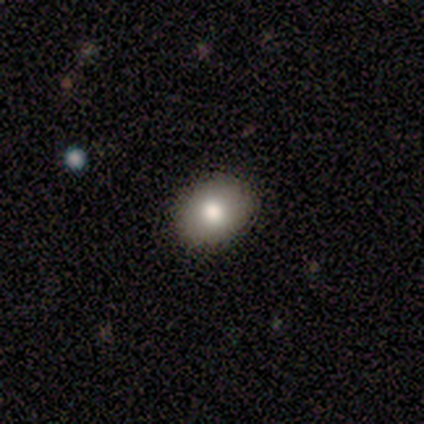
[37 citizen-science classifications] A smooth galaxy with no disk features (84%) that is in between round and cigar-shaped (61%).

Vote fractions:
- Smooth or featured? smooth: 84% / featured or disk: 11% / star or artifact: 5%
- How rounded? in between: 61% / round: 39% / cigar-shaped: 0%
- Merging? none: 86% / minor disturbance: 9% / merger: 6% / major disturbance: 0%